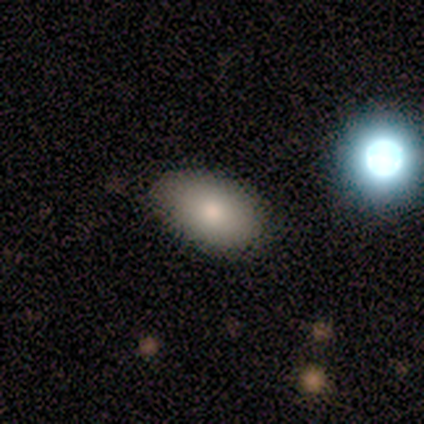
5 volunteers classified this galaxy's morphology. smooth 100%, featured or disk 0%, star or artifact 0%. Down the decision tree: how rounded — in between (100%); merging — none (80%).